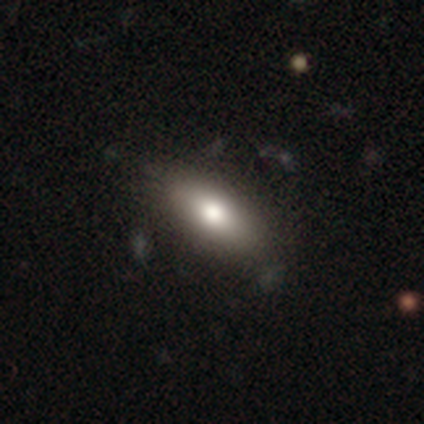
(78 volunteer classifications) smooth_or_featured: smooth (p=0.78) [alt: featured or disk p=0.14]
how_rounded: in between (p=0.82) [alt: cigar-shaped p=0.16]
merging: none (p=0.44) [alt: minor disturbance p=0.06]